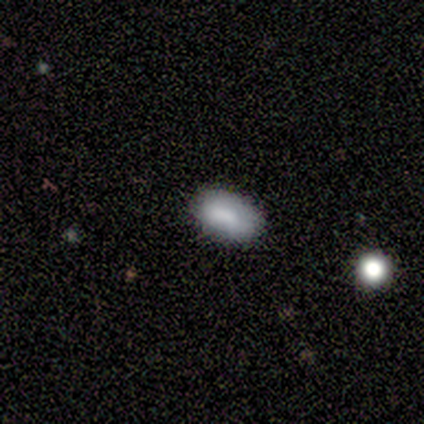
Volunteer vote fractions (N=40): This is clearly a smooth galaxy (85%). How rounded: clearly in between (100%). Merging: likely none (79%).